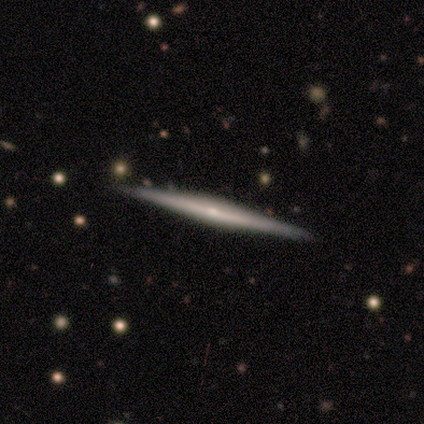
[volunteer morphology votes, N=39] Smooth or featured?
  - featured or disk: 82% *
  - smooth: 15%
  - star or artifact: 3%
Edge-on disk?
  - yes: 100% *
  - no: 0%
Edge-on bulge?
  - rounded: 50% *
  - none: 41%
  - boxy: 9%
Merging?
  - none: 95% *
  - minor disturbance: 5%
  - major disturbance: 0%
  - merger: 0%